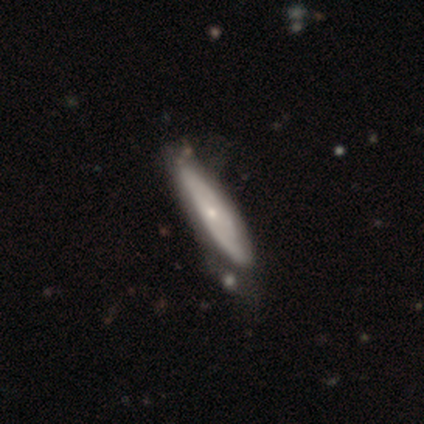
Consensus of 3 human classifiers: smooth_or_featured: featured or disk (p=0.67) [alt: smooth p=0.33]
disk_edge_on: yes (p=1.00)
edge_on_bulge: rounded (p=1.00)
merging: none (p=0.33) [tied with: minor disturbance p=0.33, major disturbance p=0.33]